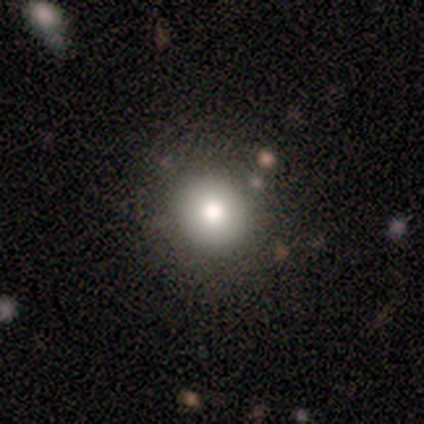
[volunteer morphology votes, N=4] A smooth galaxy with no disk features (50%) that is round (100%).

Vote fractions:
- Smooth or featured? smooth: 50% / featured or disk: 25% / star or artifact: 25%
- How rounded? round: 100% / in between: 0% / cigar-shaped: 0%
- Merging? none: 67% / minor disturbance: 33% / major disturbance: 0% / merger: 0%